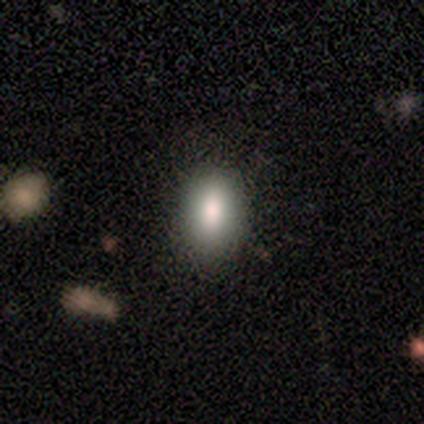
This appears to be a smooth galaxy with no disk features (80%) that is in between round and cigar-shaped (75%). Merging: none (100%).